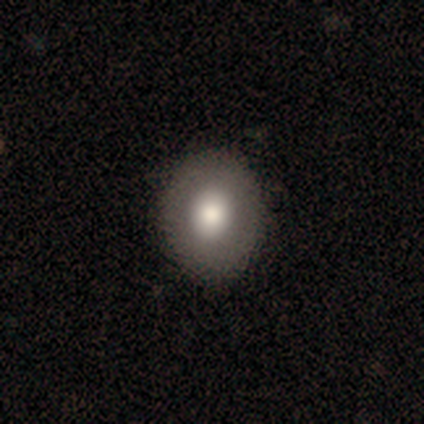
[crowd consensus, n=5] Volunteers were most divided on "how rounded": round: 75%, in between: 25%, cigar-shaped: 0%. More confident: smooth or featured — smooth (80%); merging — none (80%).